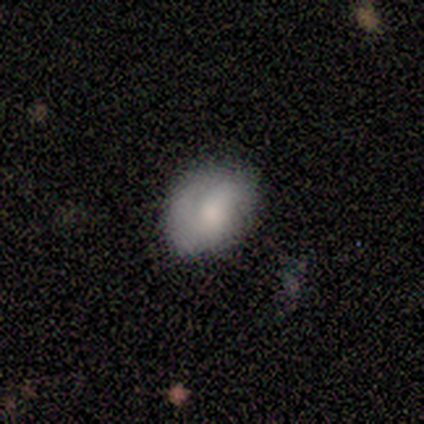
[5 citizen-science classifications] Volunteers were most divided on "spiral winding" (2-way tie): medium: 50%, loose: 50%, tight: 0%; "spiral arm count" (2-way tie): 2: 50%, can't tell: 50%, 1: 0%, 3: 0%, 4: 0%, more than 4: 0%; "bulge size" (3-way tie): moderate: 33%, small: 33%, none: 33%, dominant: 0%, large: 0%. More confident: edge-on disk — no (100%); bar — no (100%); spiral arms — yes (67%); smooth or featured — featured or disk (60%); merging — none (60%).